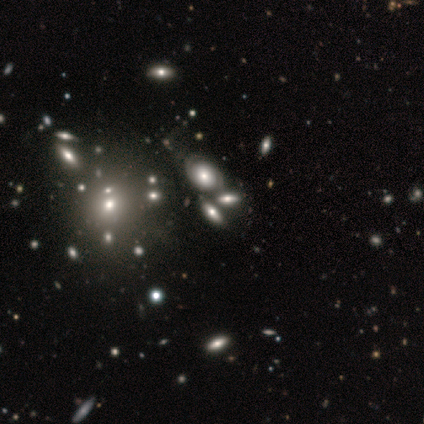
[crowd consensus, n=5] A smooth galaxy with no disk features (40%, tied with featured or disk) that is round (50%, tied with in between).

Vote fractions:
- Smooth or featured? smooth: 40% (tied) / featured or disk: 40% (tied) / star or artifact: 20%
- How rounded? round: 50% (tied) / in between: 50% (tied) / cigar-shaped: 0%
- Merging? merger: 50% / none: 25% / minor disturbance: 25% / major disturbance: 0%